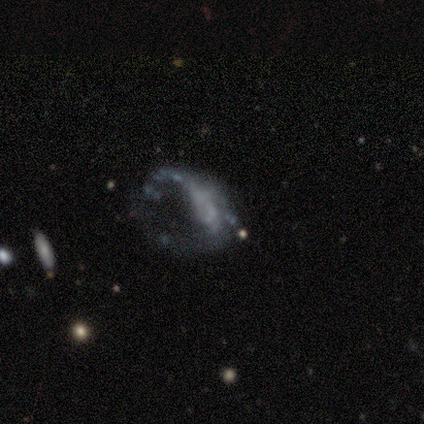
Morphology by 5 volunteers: type=featured or disk (80%); edge-on=no (100%); bar=no (50%); spiral arms=yes (50%, tied with no); winding=loose (100%); arm count=1 (50%, tied with 2); bulge=none (50%); merging=major disturbance (100%).